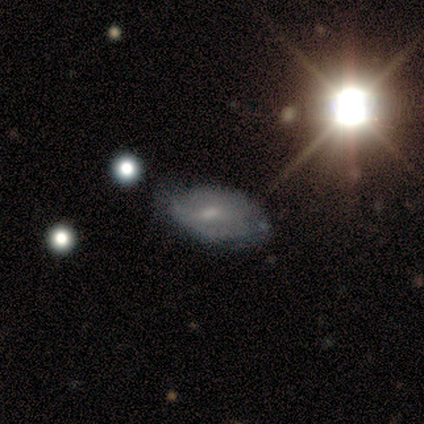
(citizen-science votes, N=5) A star or artifact, not a galaxy (60%).